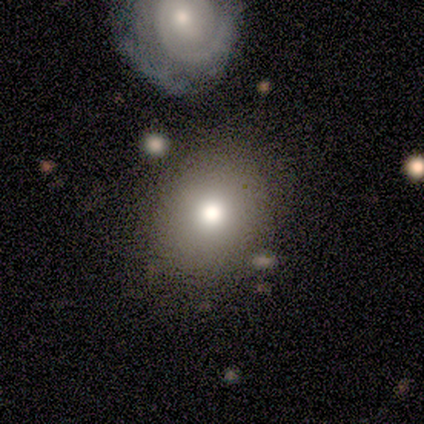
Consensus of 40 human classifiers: Smooth or featured?
  - smooth: 82% *
  - featured or disk: 10%
  - star or artifact: 8%
How rounded?
  - round: 79% *
  - in between: 18%
  - cigar-shaped: 3%
Merging?
  - none: 46% *
  - merger: 16%
  - minor disturbance: 11%
  - major disturbance: 3%